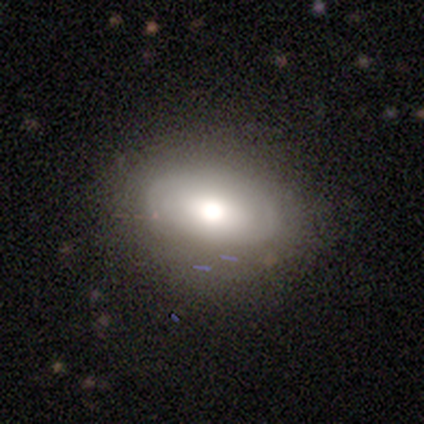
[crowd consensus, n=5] featured or disk 80%, smooth 20%, star or artifact 0%. Down the decision tree: edge-on disk — no (100%); bar — no (75%); spiral arms — yes (100%); spiral arm count — 2 (75%); spiral winding — tight (100%); bulge size — moderate (75%); merging — none (60%).